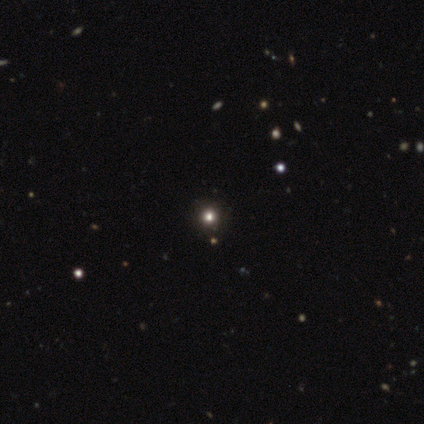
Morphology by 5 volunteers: Volunteers were most divided on "smooth or featured": star or artifact: 80%, smooth: 20%, featured or disk: 0%.